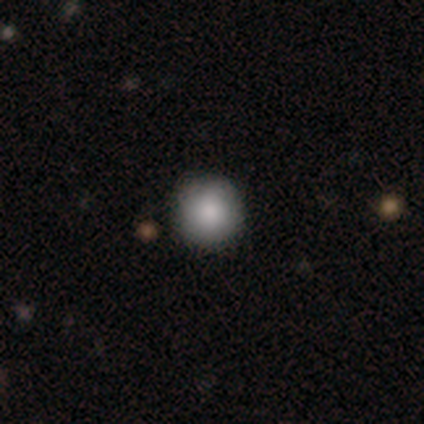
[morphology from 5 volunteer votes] smooth 100%, featured or disk 0%, star or artifact 0%. Down the decision tree: how rounded — round (100%); merging — none (100%).